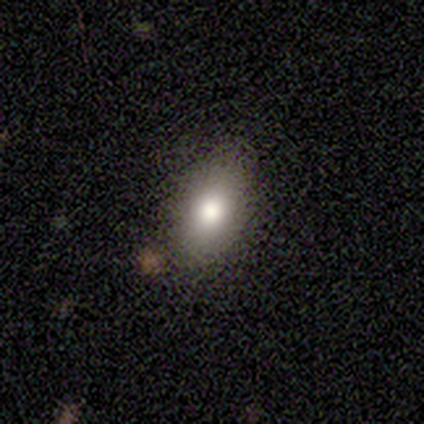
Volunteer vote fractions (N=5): Overall: smooth (80%). How rounded: in between (100%). Merging: none (75%).